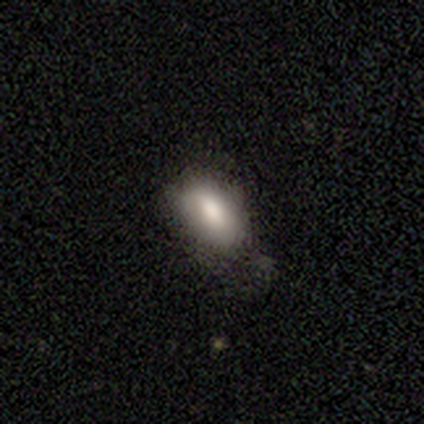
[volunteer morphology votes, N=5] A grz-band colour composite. It shows a smooth galaxy with no disk features (100%) that is in between round and cigar-shaped (100%). Merging: none (80%).